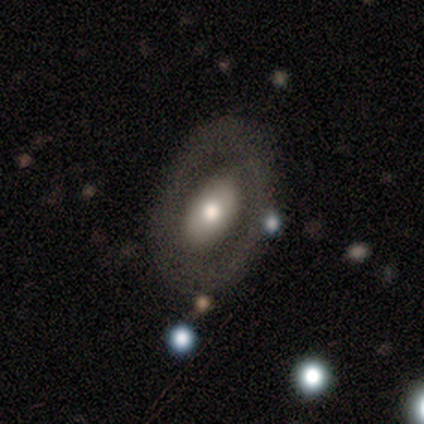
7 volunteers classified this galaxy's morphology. A featured or disk galaxy (71%) with a weak bar (67%), 2 (50%, tied with can't tell) medium (50%, tied with loose) spiral arms (67%) and a moderate central bulge (100%). Merging: none (71%).